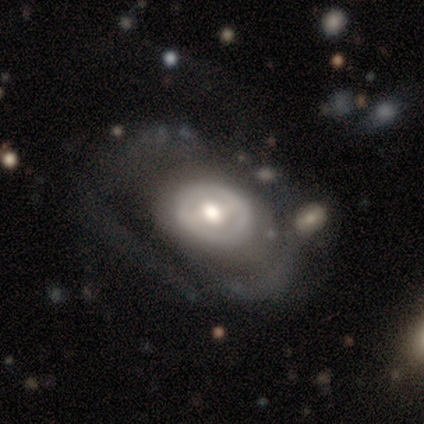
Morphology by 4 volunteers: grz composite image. It shows a featured or disk galaxy (100%) with a strong bar (50%, tied with no), no spiral arms (75%) and a moderate central bulge (75%). Merging: none (50%, tied with major disturbance).